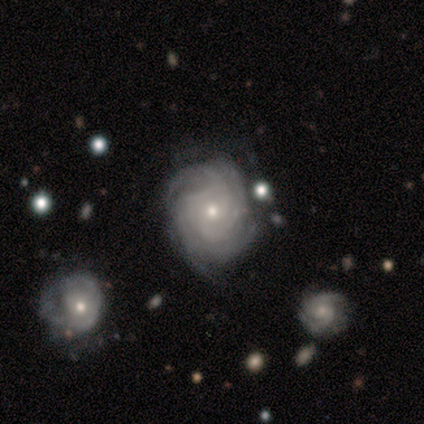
Smooth or featured?
  - featured or disk: 80% *
  - smooth: 20%
  - star or artifact: 0%
Edge-on disk?
  - no: 100% *
  - yes: 0%
Bar?
  - no: 100% *
  - strong: 0%
  - weak: 0%
Spiral arms?
  - yes: 100% *
  - no: 0%
Spiral winding?
  - tight: 75% *
  - loose: 25%
  - medium: 0%
Spiral arm count?
  - 4: 50% * (tied)
  - more than 4: 50% * (tied)
  - 1: 0%
  - 2: 0%
  - 3: 0%
  - can't tell: 0%
Bulge size?
  - small: 75% *
  - moderate: 25%
  - dominant: 0%
  - large: 0%
  - none: 0%
Merging?
  - none: 80% *
  - minor disturbance: 20%
  - major disturbance: 0%
  - merger: 0%